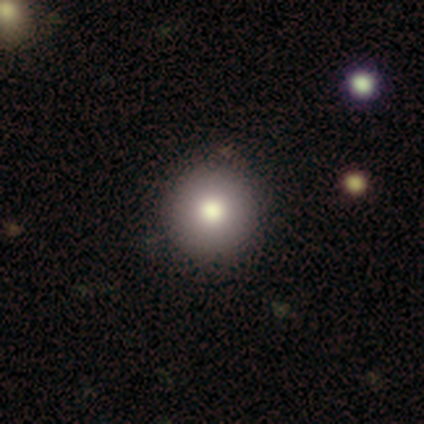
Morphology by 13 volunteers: smooth_or_featured: smooth (p=0.85) [alt: featured or disk p=0.08]
how_rounded: round (p=1.00)
merging: none (p=0.75) [alt: minor disturbance p=0.25]